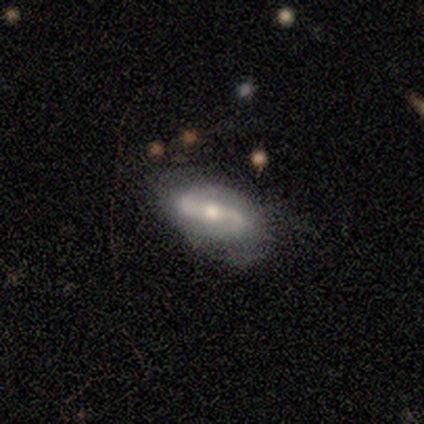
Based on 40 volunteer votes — Smooth or featured: featured or disk — 88% (smooth — 8%)
Edge-on disk: no — 97% (yes — 3%)
Bar: strong — 50% (weak — 29%)
Spiral arms: yes — 91% (no — 9%)
Spiral winding: loose — 48% (medium — 39%)
Spiral arm count: 2 — 97% (1 — 3%)
Bulge size: moderate — 68% (small — 29%)
Merging: none — 63% (minor disturbance — 24%)